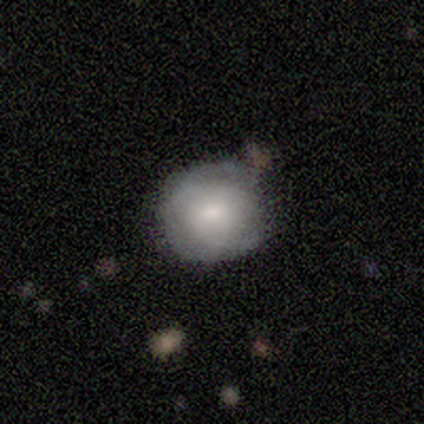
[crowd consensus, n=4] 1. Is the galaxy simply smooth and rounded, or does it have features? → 50% smooth (tied), 50% featured or disk (tied), 0% star or artifact.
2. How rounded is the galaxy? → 100% round, 0% in between, 0% cigar-shaped.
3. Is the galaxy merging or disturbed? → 50% none (tied), 50% minor disturbance (tied), 0% major disturbance, 0% merger.